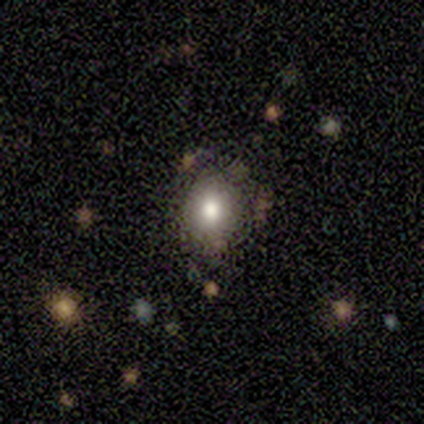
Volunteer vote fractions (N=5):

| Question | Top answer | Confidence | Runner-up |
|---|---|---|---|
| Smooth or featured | featured or disk | 80% | smooth (20%) |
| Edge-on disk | no | 100% | — |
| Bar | no | 75% | weak (25%) |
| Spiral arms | yes | 50% | tied: no (50%) |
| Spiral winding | medium | 50% | tied: loose (50%) |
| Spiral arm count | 1 | 50% | tied: 4 (50%) |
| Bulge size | large | 50% | dominant (25%) |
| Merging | none | 60% | minor disturbance (20%) |